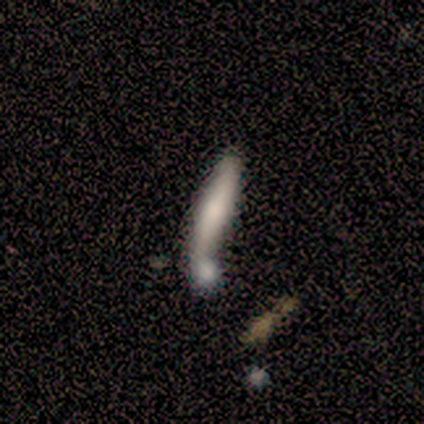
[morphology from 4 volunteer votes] Smooth or featured? 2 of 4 (50%, tied with featured or disk) said smooth. How rounded? 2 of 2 (100%) said cigar-shaped. Merging? 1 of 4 (25%, tied with minor disturbance, major disturbance and merger) said none.